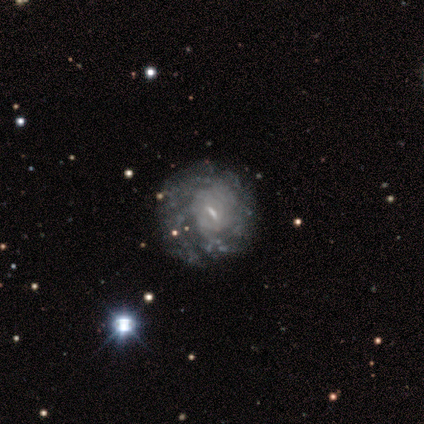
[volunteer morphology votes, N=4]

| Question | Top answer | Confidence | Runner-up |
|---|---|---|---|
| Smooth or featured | featured or disk | 100% | — |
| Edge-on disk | no | 100% | — |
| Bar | no | 50% | strong (25%) |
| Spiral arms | no | 75% | yes (25%) |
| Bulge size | small | 75% | moderate (25%) |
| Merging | none | 75% | major disturbance (25%) |